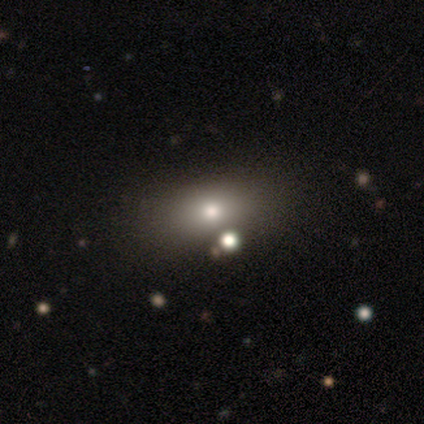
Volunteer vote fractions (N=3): smooth_or_featured: featured or disk (p=0.67) [alt: smooth p=0.33]
disk_edge_on: yes (p=0.50) [tied with: no p=0.50]
edge_on_bulge: rounded (p=1.00)
merging: none (p=0.67) [alt: minor disturbance p=0.33]